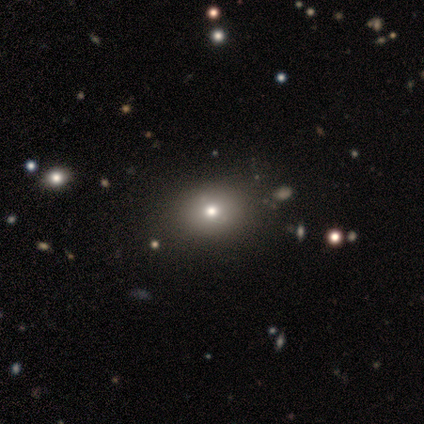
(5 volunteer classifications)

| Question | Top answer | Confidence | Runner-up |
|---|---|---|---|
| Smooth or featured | smooth | 100% | — |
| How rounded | in between | 60% | round (40%) |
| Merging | none | 80% | minor disturbance (20%) |